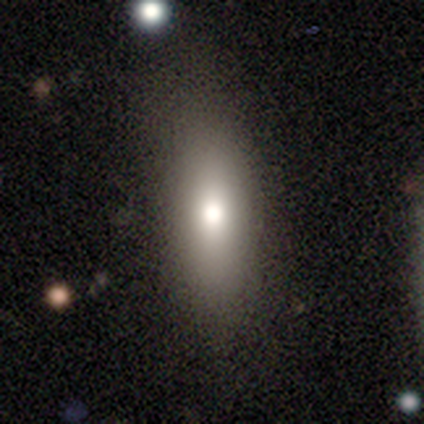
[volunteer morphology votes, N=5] This is clearly a smooth galaxy (80%). How rounded: possibly in between (50%, tied with cigar-shaped). Merging: marginally none (40%, tied with minor disturbance).